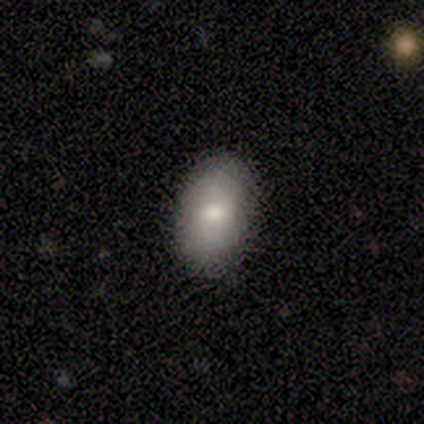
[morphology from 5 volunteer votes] Overall: smooth (100%). How rounded: in between (100%). Merging: none (100%).